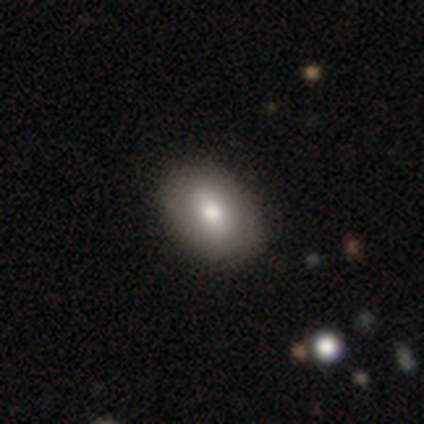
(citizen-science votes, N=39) Q: Smooth or featured?
A: smooth (67%); runner-up: featured or disk (31%)
Q: How rounded?
A: in between (81%); runner-up: round (19%)
Q: Merging?
A: none (71%); runner-up: minor disturbance (8%)